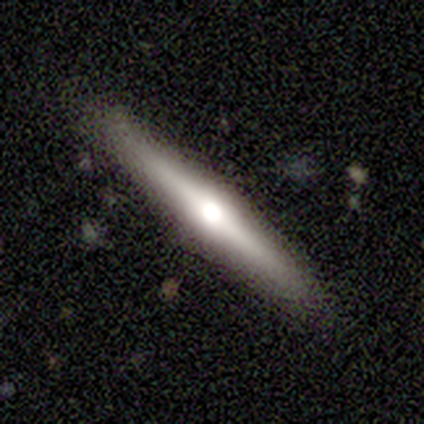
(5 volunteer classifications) Smooth or featured? featured or disk (60%)
Edge-on disk? yes (100%)
Edge-on bulge? rounded (100%)
Merging? none (100%)